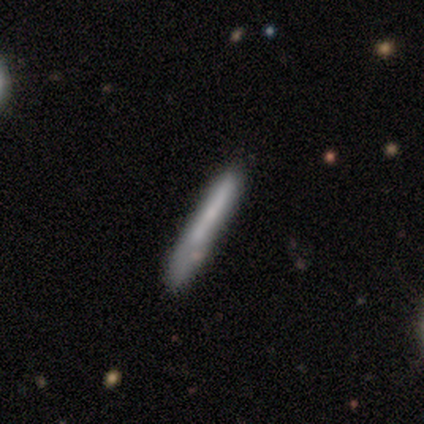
Smooth or featured: smooth — 50% (tied with featured or disk — 50%)
How rounded: cigar-shaped — 100%
Merging: none — 100%